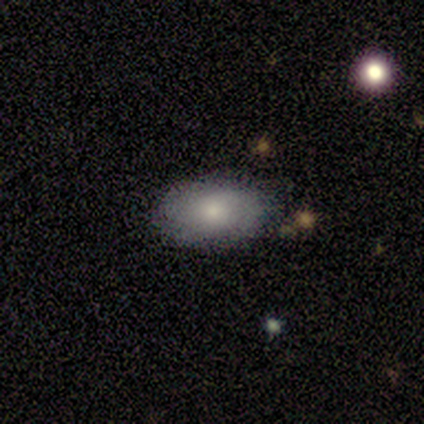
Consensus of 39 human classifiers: This appears to be a smooth galaxy with no disk features (77%) that is in between round and cigar-shaped (97%). Merging: none (73%).